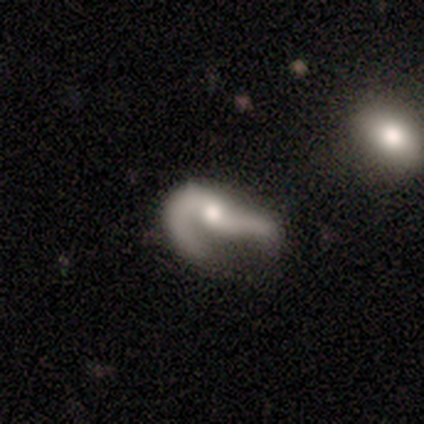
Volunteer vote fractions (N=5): This is likely a featured or disk galaxy (60%). It is likely not viewed edge-on (67%). Bar: clearly no (100%). Spiral arm pattern: possibly yes (50%, tied with no). Spiral arm count: clearly can't tell (100%). Spiral winding: clearly loose (100%). Central bulge: clearly moderate (100%). Merging: likely major disturbance (60%).